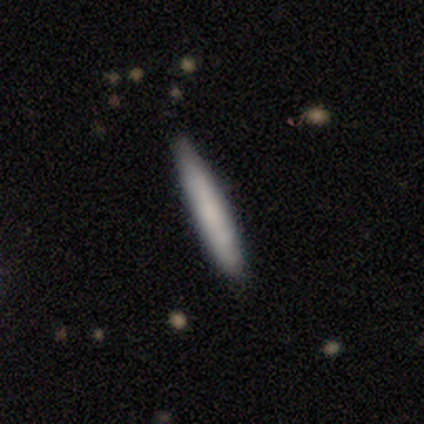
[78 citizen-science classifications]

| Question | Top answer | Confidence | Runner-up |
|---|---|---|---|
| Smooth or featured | smooth | 77% | featured or disk (22%) |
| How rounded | cigar-shaped | 98% | in between (2%) |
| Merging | none | 86% | minor disturbance (13%) |